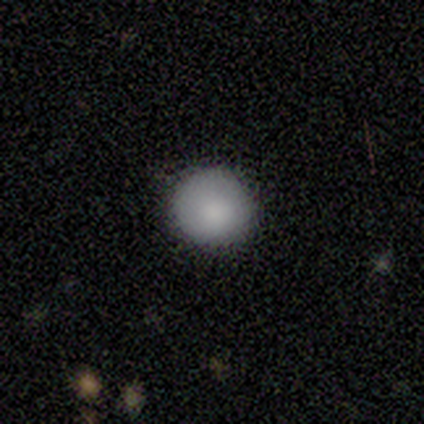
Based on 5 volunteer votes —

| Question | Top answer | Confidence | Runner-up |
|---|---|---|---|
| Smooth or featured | smooth | 100% | — |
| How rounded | round | 100% | — |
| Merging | none | 100% | — |